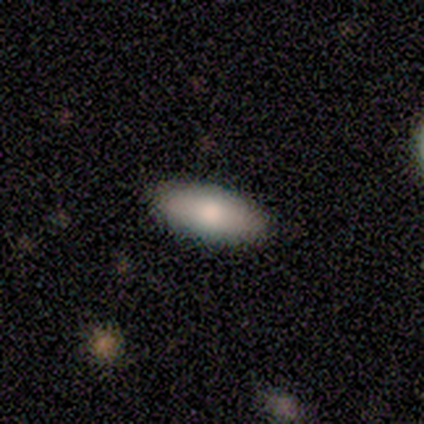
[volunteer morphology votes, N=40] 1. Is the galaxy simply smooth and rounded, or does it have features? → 75% smooth, 22% featured or disk, 2% star or artifact.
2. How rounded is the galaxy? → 80% in between, 20% cigar-shaped, 0% round.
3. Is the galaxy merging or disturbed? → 51% none, 10% minor disturbance, 8% merger, 0% major disturbance.